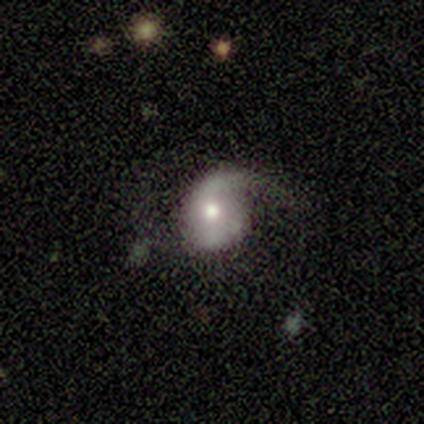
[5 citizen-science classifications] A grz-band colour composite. It shows a smooth galaxy with no disk features (60%) that is round (33%, tied with in between and cigar-shaped). Merging: none (40%, tied with major disturbance).